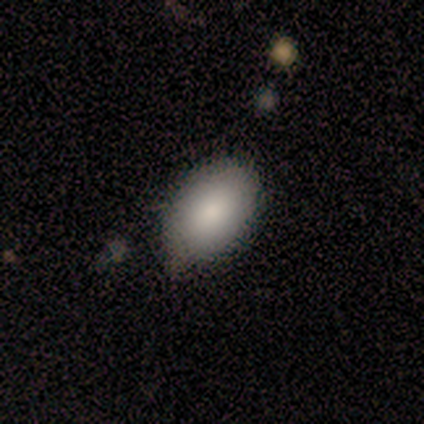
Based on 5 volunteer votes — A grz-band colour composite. It shows a smooth galaxy with no disk features (80%) that is in between round and cigar-shaped (75%). Merging: none (50%, tied with minor disturbance).